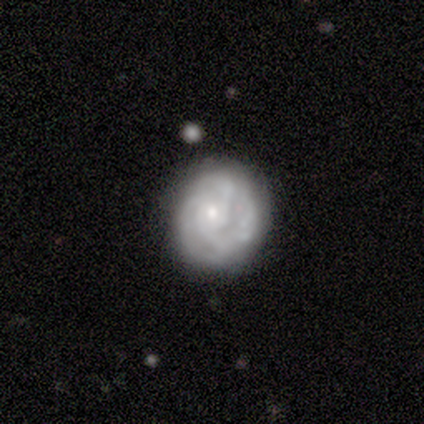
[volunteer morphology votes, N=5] Smooth or featured? 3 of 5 (60%) said featured or disk. Edge-on disk? 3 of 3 (100%) said no. Bar? 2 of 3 (67%) said no. Spiral arms? 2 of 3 (67%) said yes. Spiral winding? 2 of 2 (100%) said tight. Spiral arm count? 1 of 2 (50%, tied with can't tell) said 3. Bulge size? 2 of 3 (67%) said small. Merging? 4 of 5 (80%) said none.